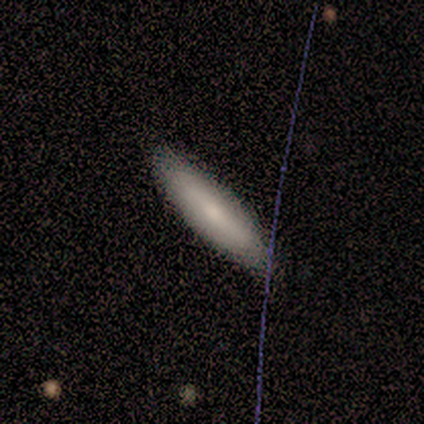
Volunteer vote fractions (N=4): A smooth galaxy with no disk features (50%, tied with featured or disk) that is cigar-shaped (100%). Merging: none (75%).